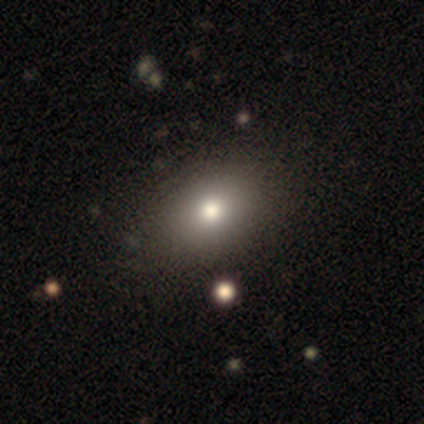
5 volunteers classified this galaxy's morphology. A smooth galaxy with no disk features (100%) that is in between round and cigar-shaped (100%). Merging: none (80%).